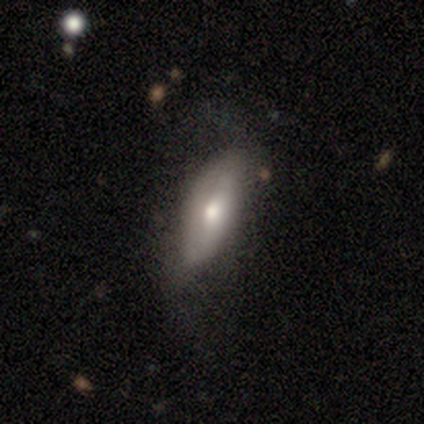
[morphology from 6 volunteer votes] A featured or disk galaxy (67%) viewed edge-on (50%, tied with no) with a rounded central bulge (100%).

Vote fractions:
- Smooth or featured? featured or disk: 67% / smooth: 17% / star or artifact: 17%
- Edge-on disk? yes: 50% (tied) / no: 50% (tied)
- Edge-on bulge? rounded: 100% / boxy: 0% / none: 0%
- Merging? none: 100% / minor disturbance: 0% / major disturbance: 0% / merger: 0%